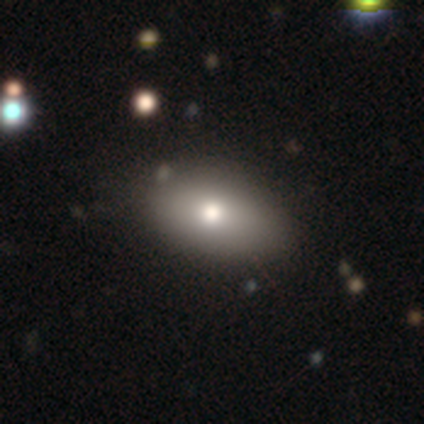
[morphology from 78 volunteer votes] type=smooth (87%); roundness=in between (91%); merging=none (35%).